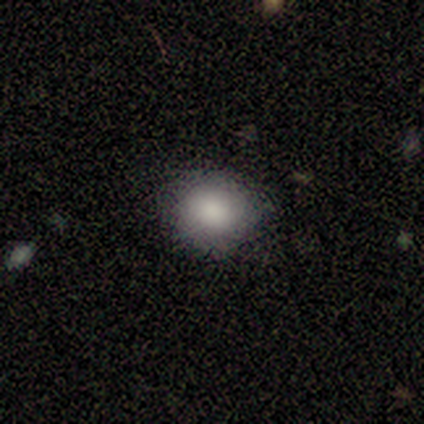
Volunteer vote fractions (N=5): Smooth or featured? 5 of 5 (100%) said smooth. How rounded? 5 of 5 (100%) said round. Merging? 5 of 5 (100%) said none.